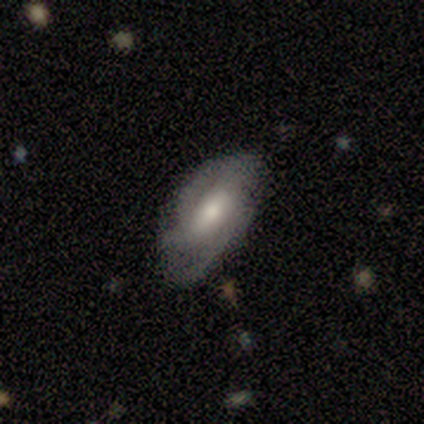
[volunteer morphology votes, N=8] smooth-or-featured: featured or disk: 50% | smooth: 38% | star or artifact: 12%
  disk-edge-on: no: 100% | yes: 0%
    bar: weak: 50% (tied) | no: 50% (tied) | strong: 0%
    has-spiral-arms: yes: 75% | no: 25%
      spiral-winding: medium: 67% | loose: 33% | tight: 0%
      spiral-arm-count: 2: 67% | can't tell: 33% | 1: 0% | 3: 0% | 4: 0% | more than 4: 0%
    bulge-size: moderate: 50% | large: 25% | small: 25% | dominant: 0% | none: 0%
  merging: none: 57% | minor disturbance: 29% | major disturbance: 14% | merger: 0%